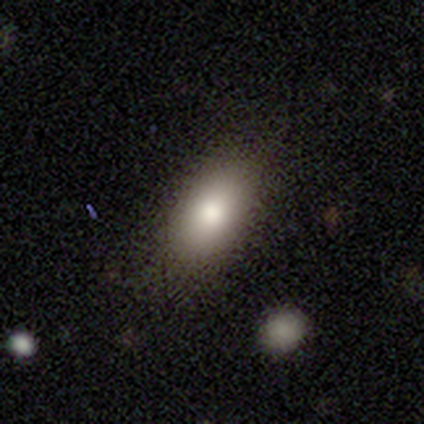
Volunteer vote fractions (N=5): Morphology: type=smooth (100%); roundness=in between (100%); merging=none (80%).